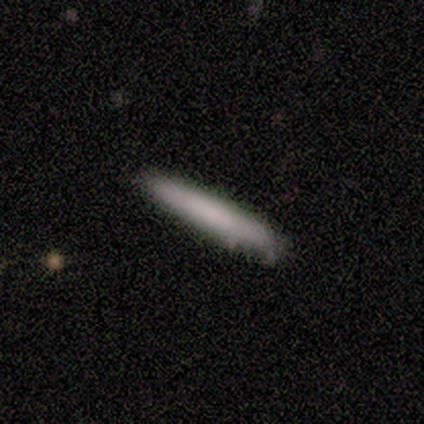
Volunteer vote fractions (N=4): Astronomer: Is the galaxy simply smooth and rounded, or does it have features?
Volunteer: smooth — 100%.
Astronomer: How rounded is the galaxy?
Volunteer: cigar-shaped — 100%.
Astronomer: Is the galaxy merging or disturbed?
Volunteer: none — 50%.